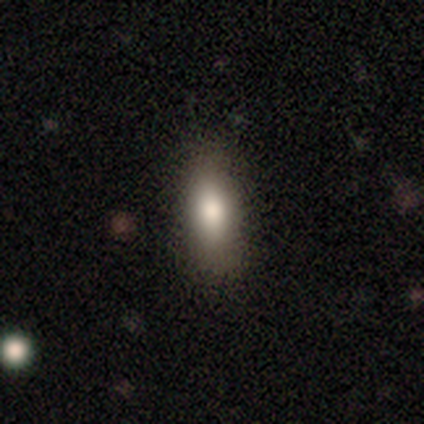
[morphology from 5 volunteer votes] This is clearly a smooth galaxy (100%). How rounded: clearly in between (100%). Merging: clearly none (100%).